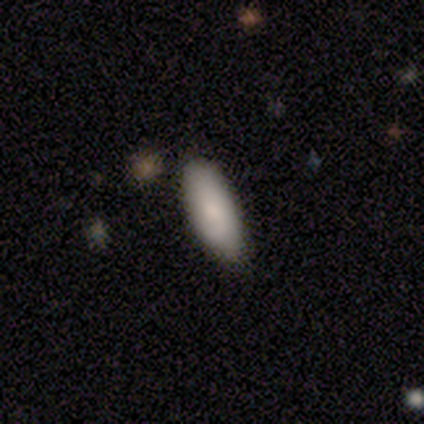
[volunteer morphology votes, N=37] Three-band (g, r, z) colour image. It shows a smooth galaxy with no disk features (84%) that is in between round and cigar-shaped (87%). Merging: none (83%).